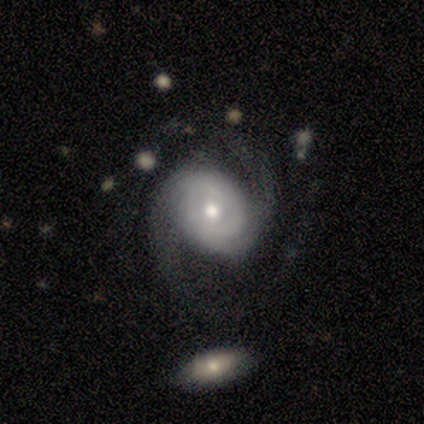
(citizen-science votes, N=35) Smooth or featured? featured or disk (91%)
Edge-on disk? no (100%)
Bar? no (69%)
Spiral arms? yes (100%)
Spiral winding? medium (59%)
Spiral arm count? 2 (88%)
Bulge size? moderate (56%)
Merging? none (60%)